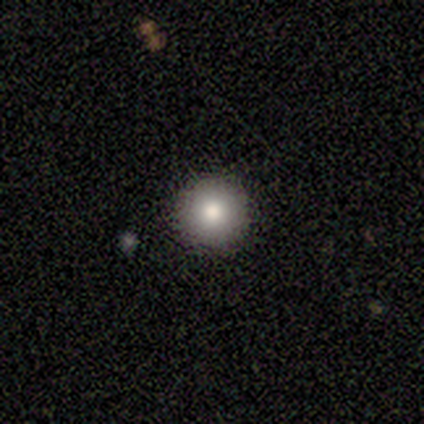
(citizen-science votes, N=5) Smooth or featured: smooth — 60% (featured or disk — 20%)
How rounded: round — 100%
Merging: none — 100%